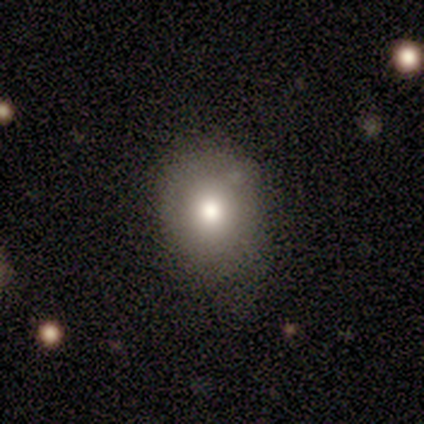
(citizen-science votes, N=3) A smooth galaxy with no disk features (67%) that is round (50%, tied with in between). Merging: none (50%, tied with minor disturbance).